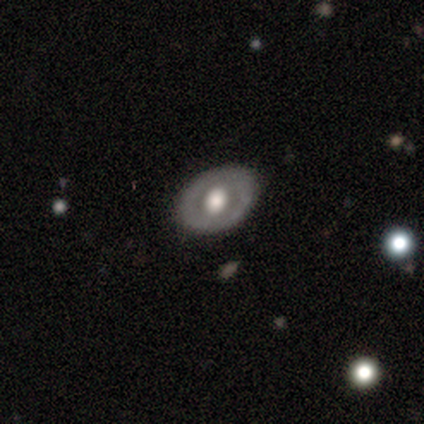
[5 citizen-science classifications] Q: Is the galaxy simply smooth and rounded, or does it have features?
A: smooth — 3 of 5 (60%).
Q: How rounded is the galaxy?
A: round — 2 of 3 (67%).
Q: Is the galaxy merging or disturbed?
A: none — 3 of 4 (75%).